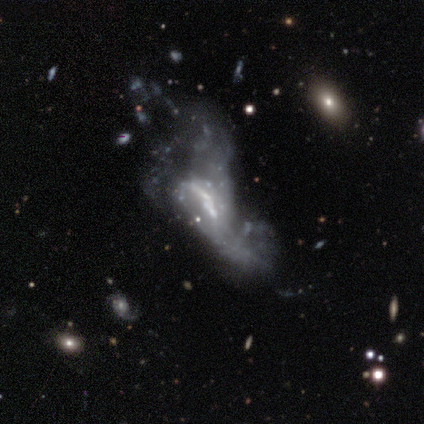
Q: Smooth or featured?
A: featured or disk (75%); runner-up: smooth (12%)
Q: Edge-on disk?
A: no (100%)
Q: Bar?
A: strong (33%); tied with: weak (33%); no (33%)
Q: Spiral arms?
A: yes (50%); tied with: no (50%)
Q: Spiral winding?
A: loose (67%); runner-up: medium (33%)
Q: Spiral arm count?
A: can't tell (67%); runner-up: 1 (33%)
Q: Bulge size?
A: small (50%); runner-up: none (33%)
Q: Merging?
A: major disturbance (43%); tied with: merger (43%)